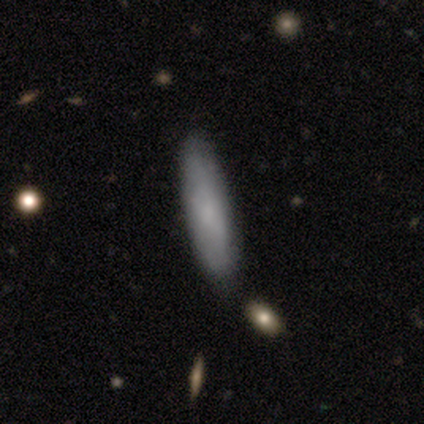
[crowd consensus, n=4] Smooth or featured?
  - smooth: 100% *
  - featured or disk: 0%
  - star or artifact: 0%
How rounded?
  - cigar-shaped: 100% *
  - round: 0%
  - in between: 0%
Merging?
  - none: 100% *
  - minor disturbance: 0%
  - major disturbance: 0%
  - merger: 0%